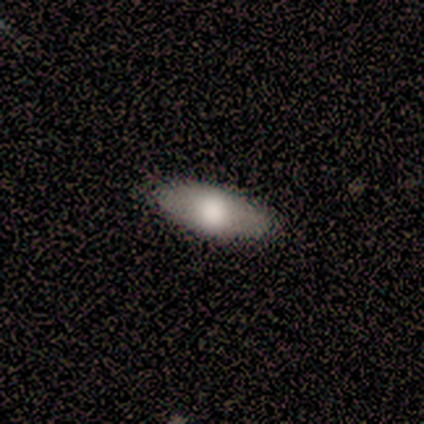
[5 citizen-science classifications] A smooth galaxy with no disk features (60%) that is in between round and cigar-shaped (100%).

Vote fractions:
- Smooth or featured? smooth: 60% / featured or disk: 20% / star or artifact: 20%
- How rounded? in between: 100% / round: 0% / cigar-shaped: 0%
- Merging? none: 75% / minor disturbance: 25% / major disturbance: 0% / merger: 0%